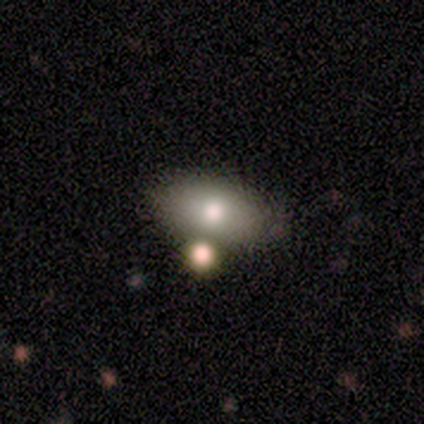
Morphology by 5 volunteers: A smooth galaxy with no disk features (40%, tied with featured or disk) that is in between round and cigar-shaped (100%).

Vote fractions:
- Smooth or featured? smooth: 40% (tied) / featured or disk: 40% (tied) / star or artifact: 20%
- How rounded? in between: 100% / round: 0% / cigar-shaped: 0%
- Merging? none: 75% / merger: 25% / minor disturbance: 0% / major disturbance: 0%